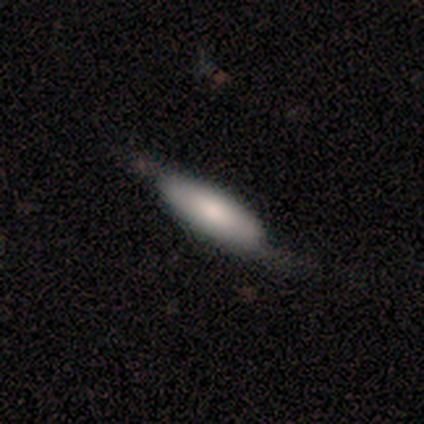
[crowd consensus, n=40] smooth-or-featured: smooth: 65% | featured or disk: 35% | star or artifact: 0%
  how-rounded: in between: 73% | cigar-shaped: 27% | round: 0%
  merging: none: 55% | minor disturbance: 18% | major disturbance: 0% | merger: 0%